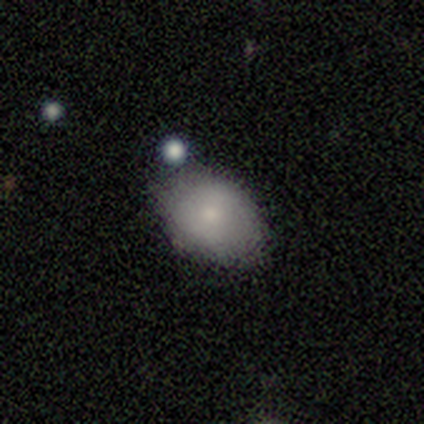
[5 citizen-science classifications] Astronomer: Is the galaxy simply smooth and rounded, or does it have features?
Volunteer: smooth — 80%.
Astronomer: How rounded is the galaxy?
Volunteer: in between — 75%.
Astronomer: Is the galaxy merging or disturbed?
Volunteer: none — 80%.